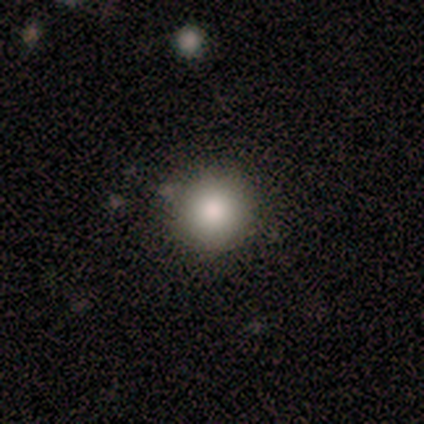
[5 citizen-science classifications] Volunteers were most divided on "smooth or featured": smooth: 80%, star or artifact: 20%, featured or disk: 0%. More confident: how rounded — round (100%); merging — none (100%).